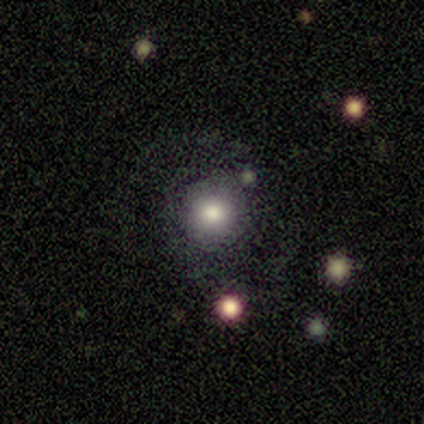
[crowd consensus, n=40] A smooth galaxy with no disk features (65%) that is round (96%).

Vote fractions:
- Smooth or featured? smooth: 65% / star or artifact: 20% / featured or disk: 15%
- How rounded? round: 96% / in between: 4% / cigar-shaped: 0%
- Merging? none: 78% / minor disturbance: 12% / major disturbance: 6% / merger: 3%